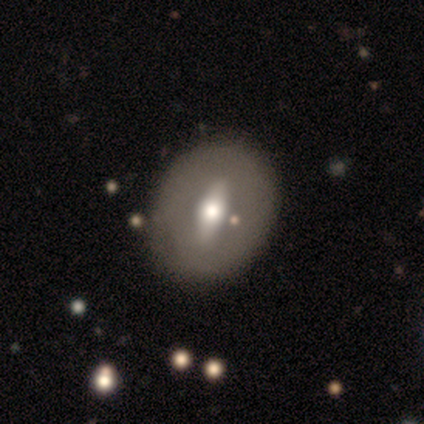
smooth 50% (tied), featured or disk 50% (tied), star or artifact 0%. Down the decision tree: how rounded — in between (67%); merging — none (50%).